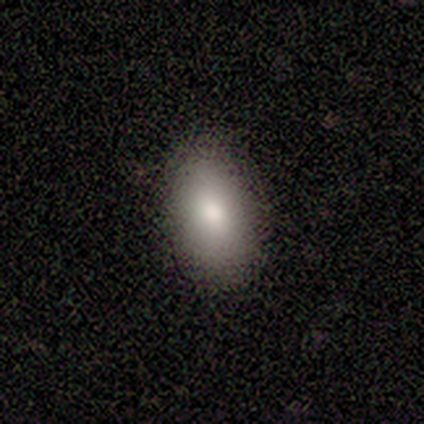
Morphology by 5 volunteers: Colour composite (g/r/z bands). It shows a smooth galaxy with no disk features (100%) that is in between round and cigar-shaped (100%). Merging: none (100%).